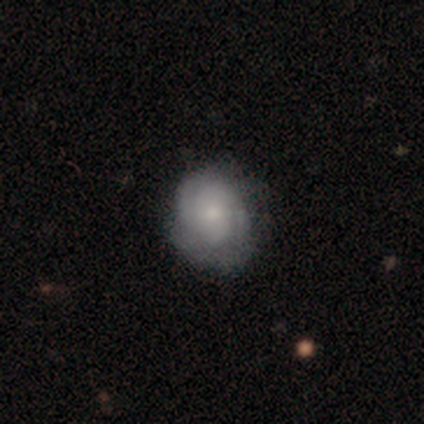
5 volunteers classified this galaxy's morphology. This appears to be a smooth galaxy with no disk features (60%) that is round (67%). Merging: none (80%).